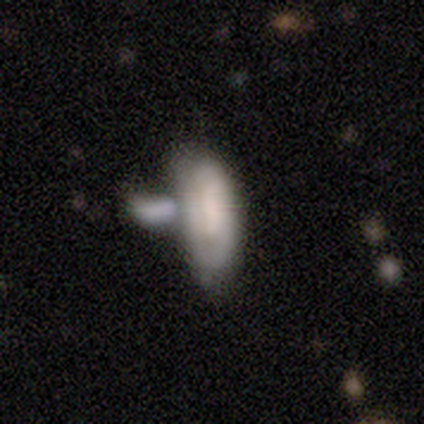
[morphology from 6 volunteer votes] A smooth galaxy with no disk features (50%, tied with featured or disk) that is in between round and cigar-shaped (100%). Merging: merger (50%).